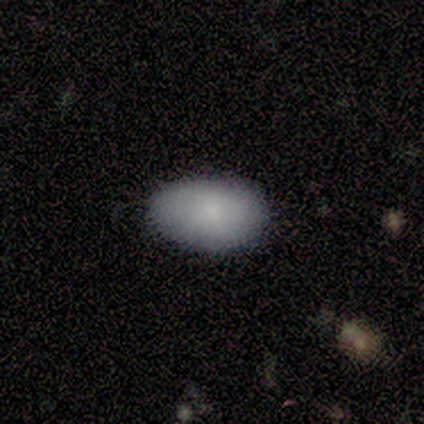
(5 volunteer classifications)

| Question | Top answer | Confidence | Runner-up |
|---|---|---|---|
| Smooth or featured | smooth | 100% | — |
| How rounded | in between | 100% | — |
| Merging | none | 80% | minor disturbance (20%) |